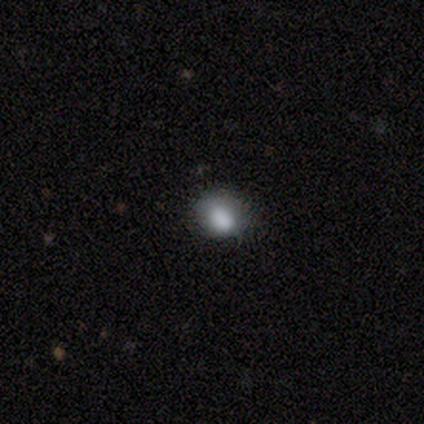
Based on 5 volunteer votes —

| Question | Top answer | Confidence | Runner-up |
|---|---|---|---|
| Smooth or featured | smooth | 100% | — |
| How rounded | in between | 60% | round (40%) |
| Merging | none | 40% | tied: minor disturbance (40%) |